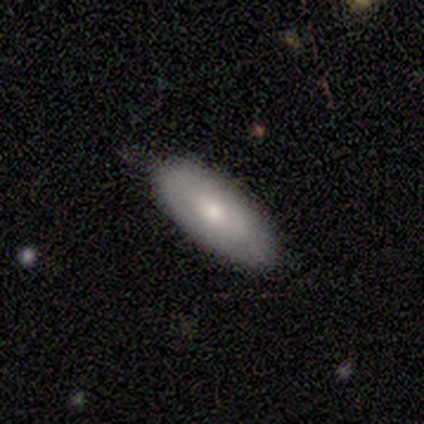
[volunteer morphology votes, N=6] smooth_or_featured: smooth (p=0.50) [tied with: featured or disk p=0.50]
how_rounded: cigar-shaped (p=0.67) [alt: in between p=0.33]
merging: none (p=0.50) [tied with: minor disturbance p=0.50]